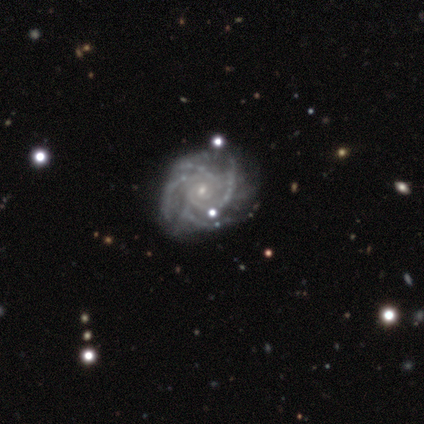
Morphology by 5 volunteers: Smooth or featured: featured or disk — 100%
Edge-on disk: no — 100%
Bar: no — 100%
Spiral arms: yes — 100%
Spiral winding: tight — 80% (loose — 20%)
Spiral arm count: 4 — 80% (more than 4 — 20%)
Bulge size: small — 100%
Merging: none — 100%